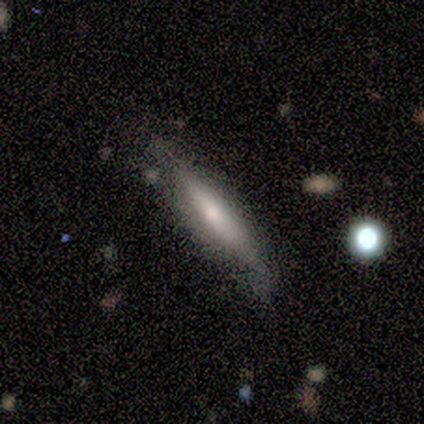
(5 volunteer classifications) smooth_or_featured: smooth (p=0.60) [alt: featured or disk p=0.40]
how_rounded: cigar-shaped (p=0.67) [alt: in between p=0.33]
merging: none (p=0.60) [alt: minor disturbance p=0.20]